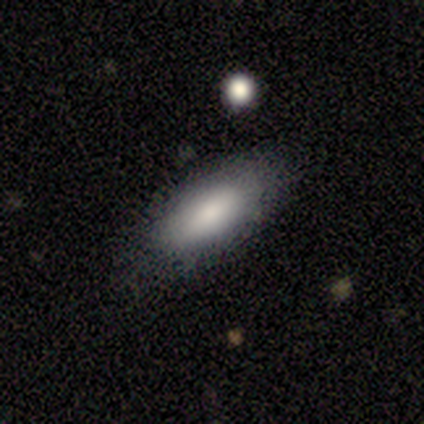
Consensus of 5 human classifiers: Q: Smooth or featured?
A: smooth (80%); runner-up: featured or disk (20%)
Q: How rounded?
A: in between (75%); runner-up: cigar-shaped (25%)
Q: Merging?
A: none (100%)